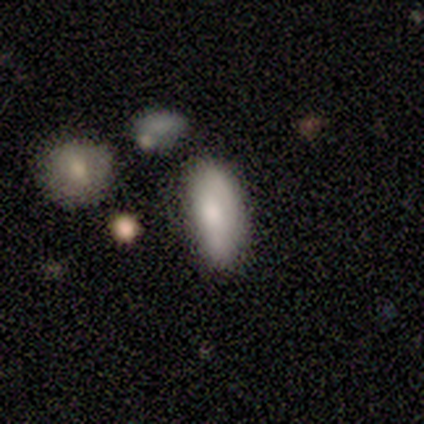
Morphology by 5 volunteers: smooth 100%, featured or disk 0%, star or artifact 0%. Down the decision tree: how rounded — in between (80%); merging — none (40%, tied with minor disturbance).